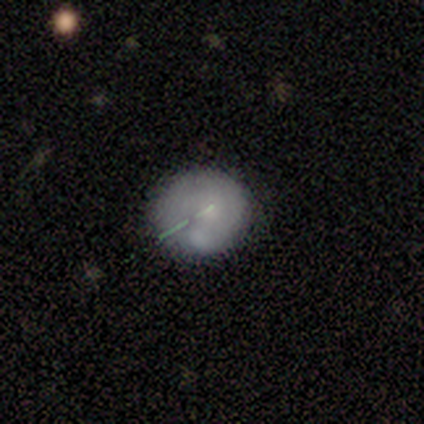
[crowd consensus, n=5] Smooth or featured? smooth (80%)
How rounded? round (75%)
Merging? none (75%)